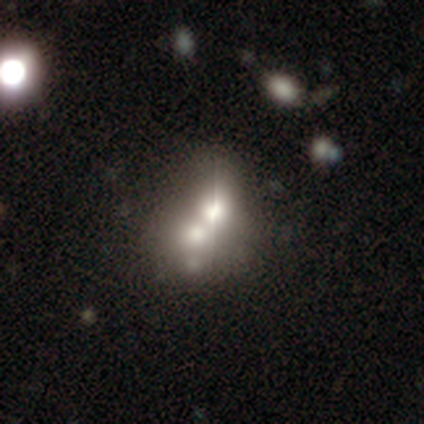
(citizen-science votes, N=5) A featured or disk galaxy (60%) with no bar (100%), no spiral arms (100%) and a large central bulge (100%).

Vote fractions:
- Smooth or featured? featured or disk: 60% / smooth: 40% / star or artifact: 0%
- Edge-on disk? no: 67% / yes: 33%
- Bar? no: 100% / strong: 0% / weak: 0%
- Spiral arms? no: 100% / yes: 0%
- Bulge size? large: 100% / dominant: 0% / moderate: 0% / small: 0% / none: 0%
- Merging? merger: 40% / none: 20% / minor disturbance: 20% / major disturbance: 20%